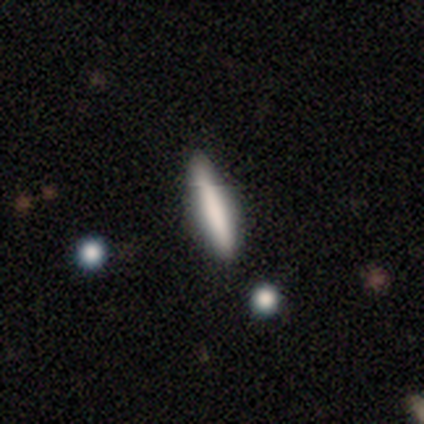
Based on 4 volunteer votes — Smooth or featured: smooth — 100%
How rounded: cigar-shaped — 100%
Merging: none — 100%